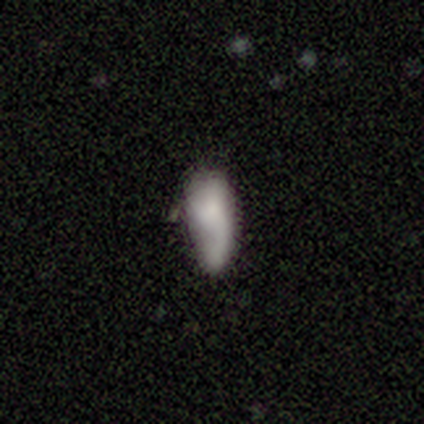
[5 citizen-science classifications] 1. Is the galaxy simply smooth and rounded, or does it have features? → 80% smooth, 20% featured or disk, 0% star or artifact.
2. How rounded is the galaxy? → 100% in between, 0% round, 0% cigar-shaped.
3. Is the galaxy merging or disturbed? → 60% minor disturbance, 20% none, 20% merger, 0% major disturbance.